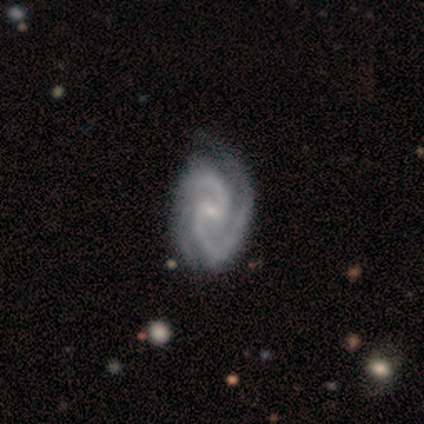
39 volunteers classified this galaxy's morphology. featured or disk 97%, smooth 3%, star or artifact 0%. Down the decision tree: edge-on disk — no (92%); bar — weak (63%); spiral arms — yes (100%); spiral arm count — 2 (91%); spiral winding — medium (54%); bulge size — small (74%); merging — none (41%).